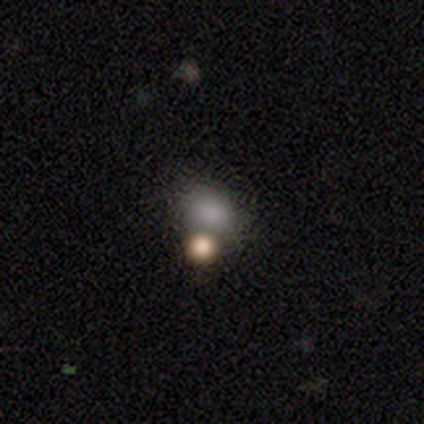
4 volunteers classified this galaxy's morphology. Q: Smooth or featured?
A: smooth (75%); runner-up: star or artifact (25%)
Q: How rounded?
A: round (67%); runner-up: in between (33%)
Q: Merging?
A: none (33%); tied with: minor disturbance (33%); merger (33%)